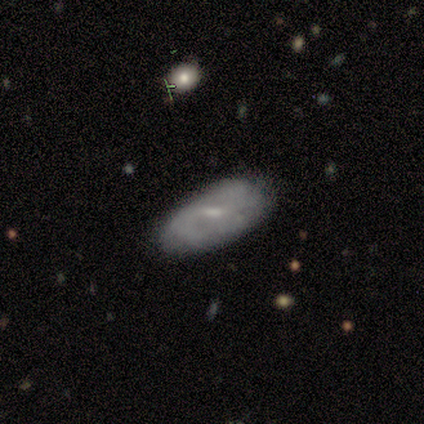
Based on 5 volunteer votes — A smooth galaxy with no disk features (60%) that is in between round and cigar-shaped (100%). Merging: none (80%).